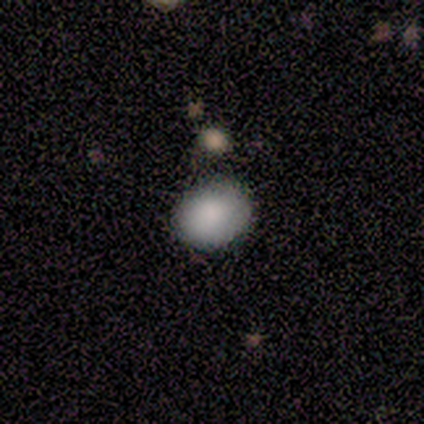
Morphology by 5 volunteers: This is clearly a smooth galaxy (80%). How rounded: likely in between (75%). Merging: likely none (75%).